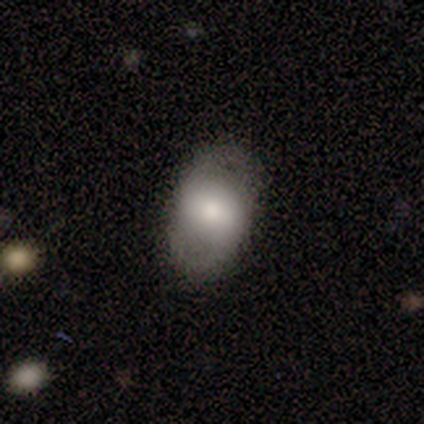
Smooth or featured? smooth (60%)
How rounded? in between (67%)
Merging? none (100%)